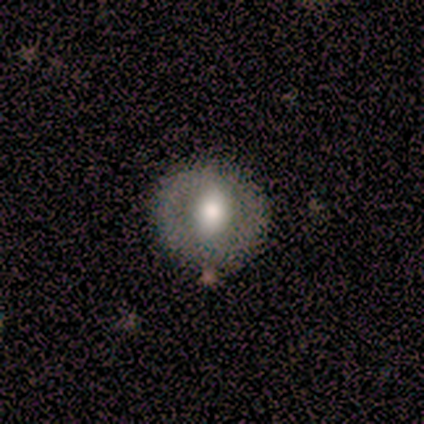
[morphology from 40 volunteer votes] smooth-or-featured: smooth: 52% | featured or disk: 40% | star or artifact: 8%
  how-rounded: round: 81% | in between: 19% | cigar-shaped: 0%
  merging: none: 89% | merger: 5% | minor disturbance: 3% | major disturbance: 3%